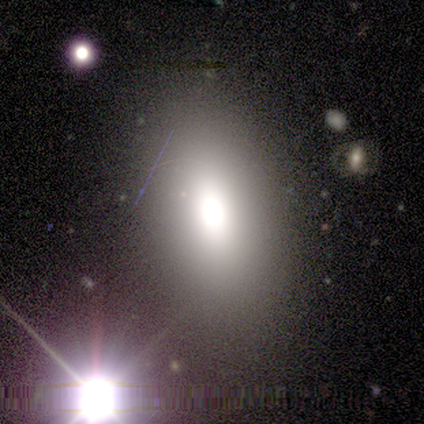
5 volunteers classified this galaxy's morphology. Smooth or featured: smooth — 60% (star or artifact — 40%)
How rounded: in between — 67% (round — 33%)
Merging: none — 100%